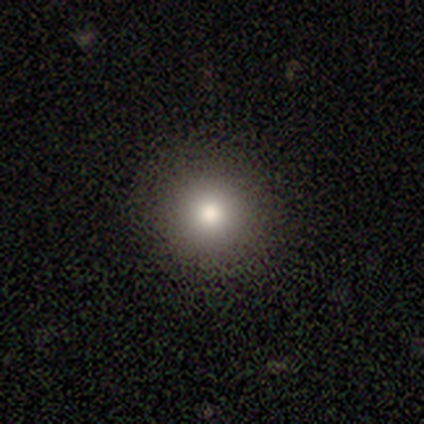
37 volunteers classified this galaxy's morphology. Q: Smooth or featured?
A: smooth (86%); runner-up: star or artifact (8%)
Q: How rounded?
A: round (100%)
Q: Merging?
A: none (97%); runner-up: major disturbance (3%)